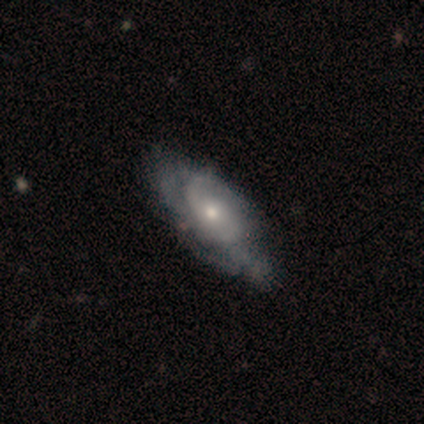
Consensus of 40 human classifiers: A featured or disk galaxy (78%) with no bar (83%), tight (46%) spiral arms (80%) and a small central bulge (53%). Merging: none (50%).